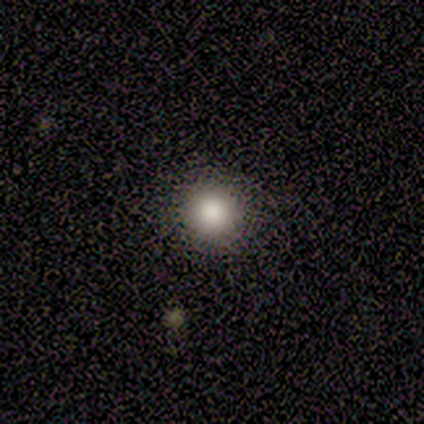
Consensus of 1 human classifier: Smooth or featured?
  - smooth: 100% *
  - featured or disk: 0%
  - star or artifact: 0%
How rounded?
  - round: 100% *
  - in between: 0%
  - cigar-shaped: 0%
Merging?
  - none: 100% *
  - minor disturbance: 0%
  - major disturbance: 0%
  - merger: 0%